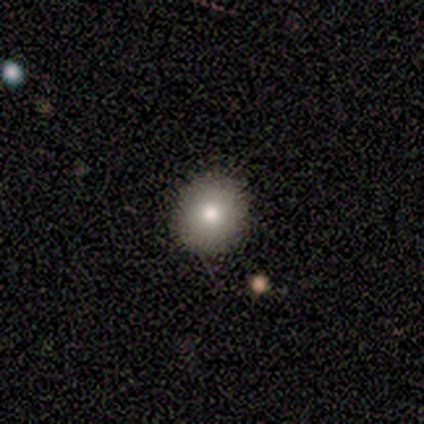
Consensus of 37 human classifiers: Smooth or featured? smooth (76%)
How rounded? round (89%)
Merging? none (93%)